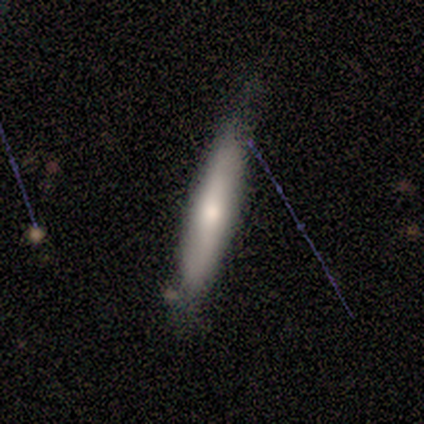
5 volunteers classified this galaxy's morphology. Q: Smooth or featured?
A: smooth (80%); runner-up: featured or disk (20%)
Q: How rounded?
A: cigar-shaped (75%); runner-up: round (25%)
Q: Merging?
A: none (80%); runner-up: minor disturbance (20%)